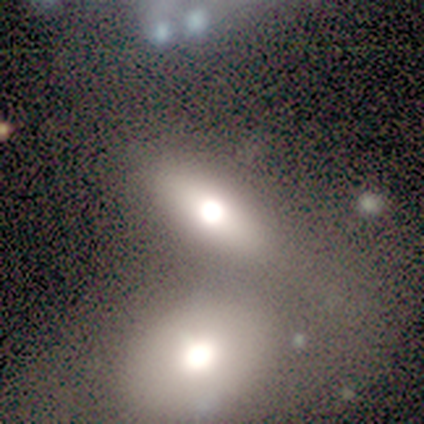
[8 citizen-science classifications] Morphology: type=smooth (88%); roundness=in between (86%); merging=none (62%).